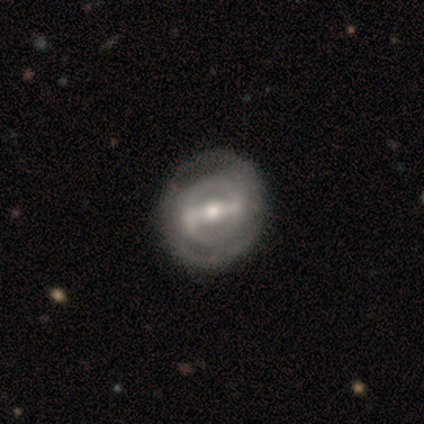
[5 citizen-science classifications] This appears to be a featured or disk galaxy (80%) with a strong bar (75%), no spiral arms (75%) and a moderate central bulge (75%). Merging: none (100%).